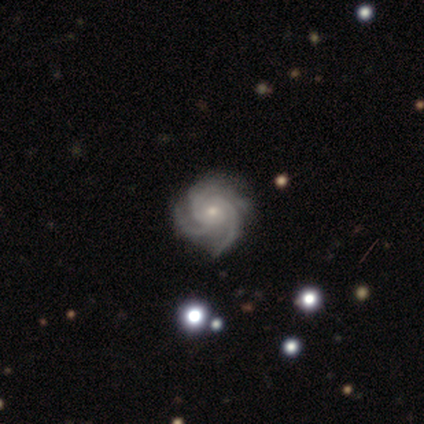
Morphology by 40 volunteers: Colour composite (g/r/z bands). It shows a featured or disk galaxy (90%) with no bar (78%), 3 (81%) tight (64%) spiral arms (100%) and a small central bulge (75%). Merging: none (82%).